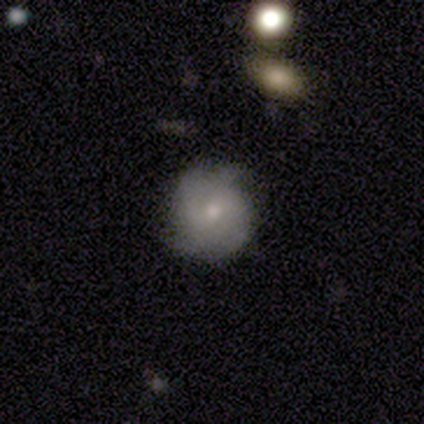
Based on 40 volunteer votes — This appears to be a featured or disk galaxy (52%) with no bar (75%), tight (65%) spiral arms (85%) and a small central bulge (55%). Merging: none (69%).